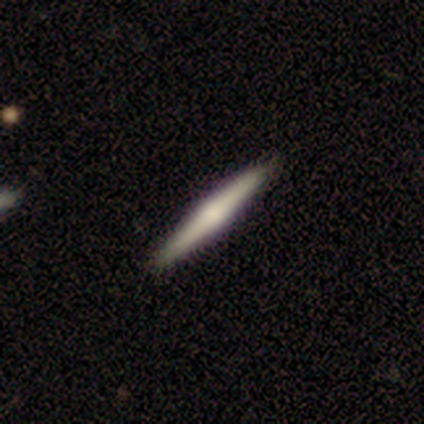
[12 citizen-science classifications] Smooth or featured? 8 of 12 (67%) said featured or disk. Edge-on disk? 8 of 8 (100%) said yes. Edge-on bulge? 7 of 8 (88%) said rounded. Merging? 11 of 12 (92%) said none.